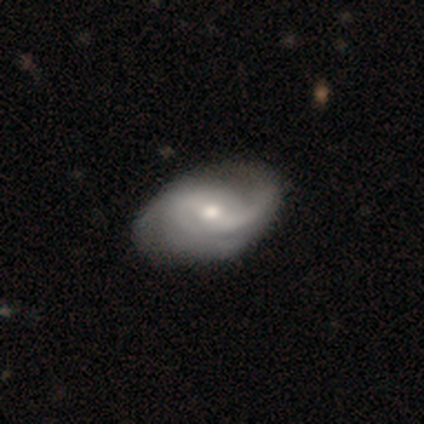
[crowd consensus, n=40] A featured or disk galaxy (90%) with a weak bar (42%, tied with no), 2 (50%) medium (44%) spiral arms (89%) and a moderate central bulge (53%).

Vote fractions:
- Smooth or featured? featured or disk: 90% / smooth: 8% / star or artifact: 2%
- Edge-on disk? no: 100% / yes: 0%
- Bar? weak: 42% (tied) / no: 42% (tied) / strong: 17%
- Spiral arms? yes: 89% / no: 11%
- Spiral winding? medium: 44% / loose: 38% / tight: 19%
- Spiral arm count? 2: 50% / can't tell: 22% / 1: 16% / 3: 12% / 4: 0% / more than 4: 0%
- Bulge size? moderate: 53% / small: 44% / dominant: 3% / large: 0% / none: 0%
- Merging? none: 56% / minor disturbance: 13% / major disturbance: 3% / merger: 0%